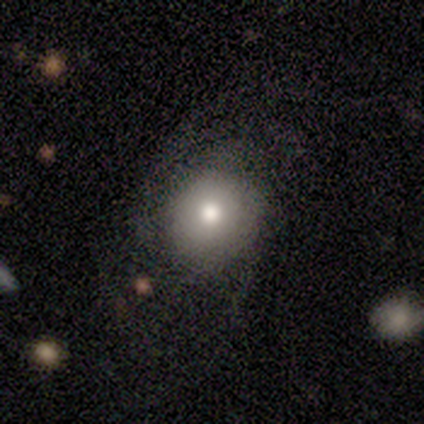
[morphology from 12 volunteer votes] smooth 83%, featured or disk 17%, star or artifact 0%. Down the decision tree: how rounded — round (80%); merging — none (67%).